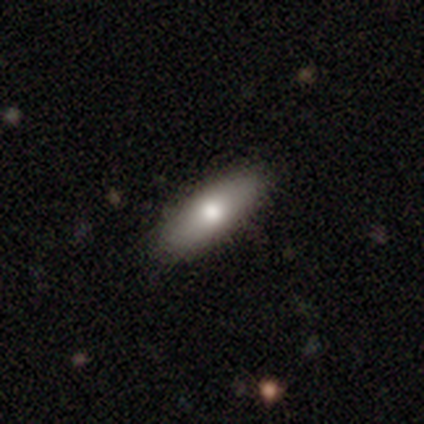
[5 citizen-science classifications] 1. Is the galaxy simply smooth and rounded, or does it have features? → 60% smooth, 20% featured or disk, 20% star or artifact.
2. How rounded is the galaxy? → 67% in between, 33% cigar-shaped, 0% round.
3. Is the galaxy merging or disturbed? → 75% none, 25% major disturbance, 0% minor disturbance, 0% merger.